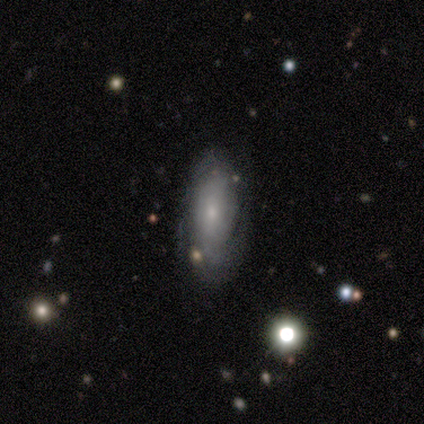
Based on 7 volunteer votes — Smooth or featured?
  - smooth: 57% *
  - featured or disk: 43%
  - star or artifact: 0%
How rounded?
  - in between: 100% *
  - round: 0%
  - cigar-shaped: 0%
Merging?
  - none: 86% *
  - minor disturbance: 14%
  - major disturbance: 0%
  - merger: 0%